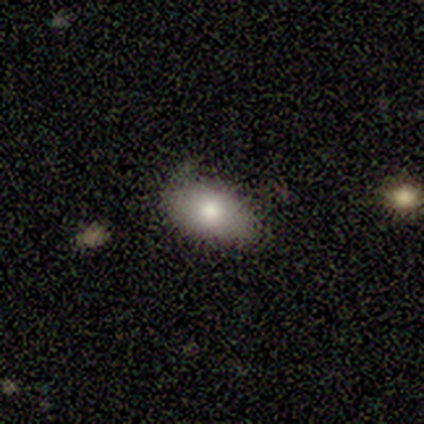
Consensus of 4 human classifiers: smooth_or_featured: smooth (p=0.75) [alt: featured or disk p=0.25]
how_rounded: in between (p=0.67) [alt: round p=0.33]
merging: none (p=0.50) [alt: minor disturbance p=0.25]